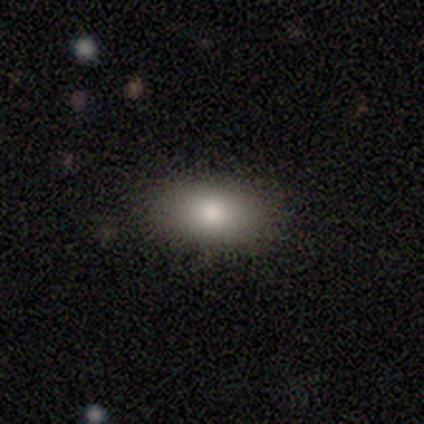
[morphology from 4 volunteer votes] Smooth or featured: smooth — 75% (star or artifact — 25%)
How rounded: in between — 100%
Merging: none — 100%